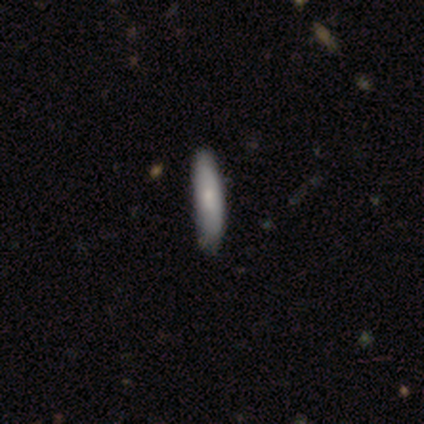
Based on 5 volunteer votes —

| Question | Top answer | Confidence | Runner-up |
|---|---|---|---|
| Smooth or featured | smooth | 80% | featured or disk (20%) |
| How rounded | in between | 50% | tied: cigar-shaped (50%) |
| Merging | none | 60% | minor disturbance (40%) |